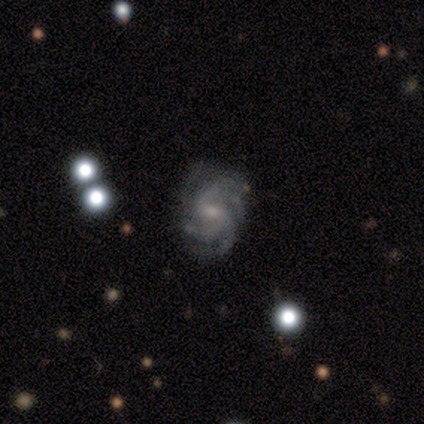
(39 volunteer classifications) Overall: featured or disk (95%). Edge-on disk: no (100%). Bar: weak (54%; no 41%). Spiral arms: yes (95%). Spiral arm count: 3 (37%; 4 34%). Spiral winding: medium (60%; tight 40%). Bulge size: moderate (46%; small 41%). Merging: none (71%).